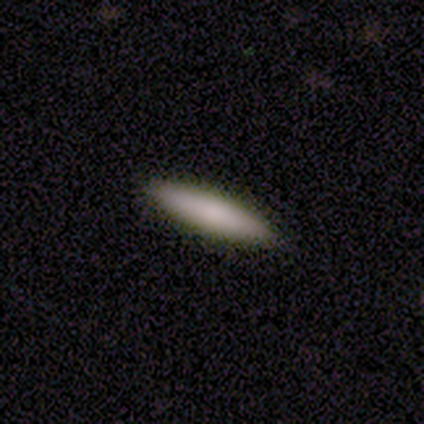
Q: Smooth or featured?
A: smooth (80%); runner-up: featured or disk (20%)
Q: How rounded?
A: cigar-shaped (100%)
Q: Merging?
A: none (100%)